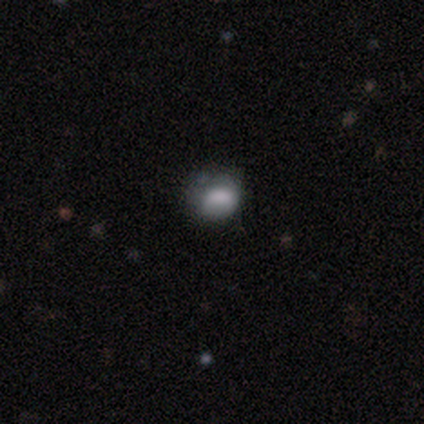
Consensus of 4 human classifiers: Morphology: type=smooth (75%); roundness=in between (67%); merging=minor disturbance (50%, tied with major disturbance).